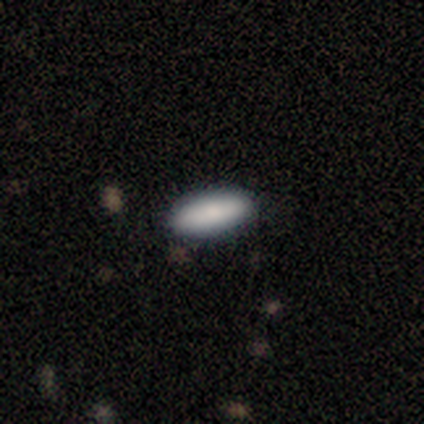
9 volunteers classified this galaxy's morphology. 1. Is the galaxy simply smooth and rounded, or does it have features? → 78% smooth, 11% featured or disk, 11% star or artifact.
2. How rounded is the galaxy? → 57% cigar-shaped, 43% in between, 0% round.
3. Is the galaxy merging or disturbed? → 88% none, 12% minor disturbance, 0% major disturbance, 0% merger.